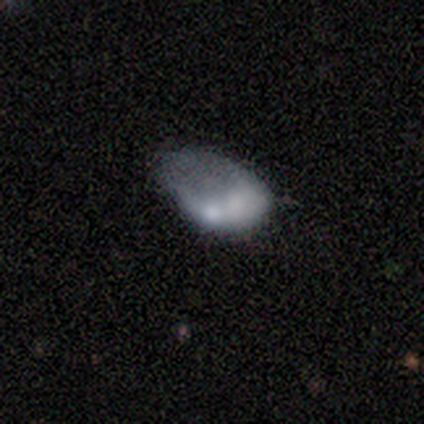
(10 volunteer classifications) Smooth or featured? 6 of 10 (60%) said smooth. How rounded? 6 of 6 (100%) said in between. Merging? 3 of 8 (38%, tied with major disturbance) said minor disturbance.